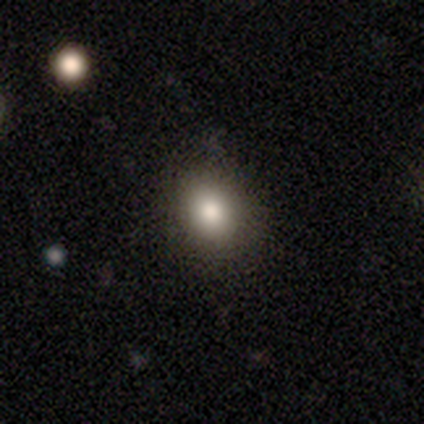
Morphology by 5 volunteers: smooth 100%, featured or disk 0%, star or artifact 0%. Down the decision tree: how rounded — round (80%); merging — none (100%).